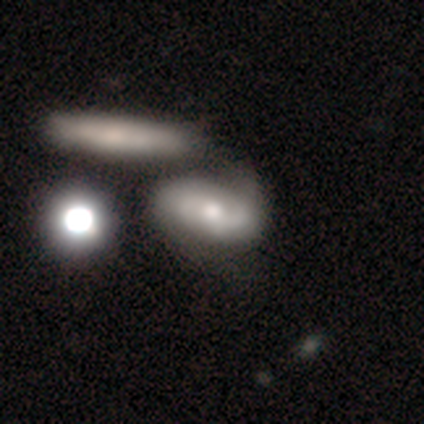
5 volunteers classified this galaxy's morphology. A featured or disk galaxy (100%) with a weak bar (60%), 2 (50%) loose (75%) spiral arms (80%) and a moderate central bulge (60%).

Vote fractions:
- Smooth or featured? featured or disk: 100% / smooth: 0% / star or artifact: 0%
- Edge-on disk? no: 100% / yes: 0%
- Bar? weak: 60% / no: 40% / strong: 0%
- Spiral arms? yes: 80% / no: 20%
- Spiral winding? loose: 75% / tight: 25% / medium: 0%
- Spiral arm count? 2: 50% / 3: 25% / can't tell: 25% / 1: 0% / 4: 0% / more than 4: 0%
- Bulge size? moderate: 60% / small: 40% / dominant: 0% / large: 0% / none: 0%
- Merging? none: 40% (tied) / merger: 40% (tied) / minor disturbance: 20% / major disturbance: 0%